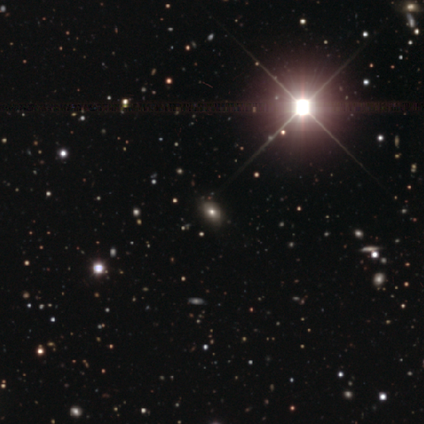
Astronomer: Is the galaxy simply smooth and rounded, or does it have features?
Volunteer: star or artifact — 60% (runner-up: smooth, 40%).